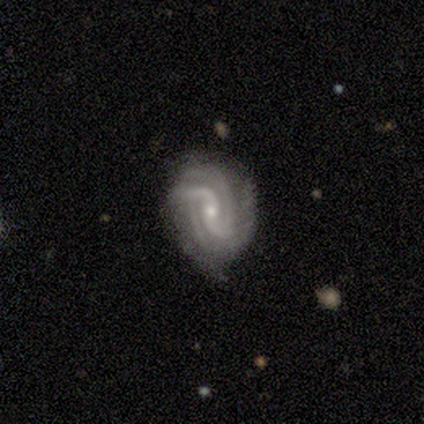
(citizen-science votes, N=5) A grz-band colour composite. It shows a featured or disk galaxy (100%) with a strong bar (50%), 3 (75%) tight (75%) spiral arms (100%) and a moderate central bulge (50%, tied with small). Merging: none (60%).